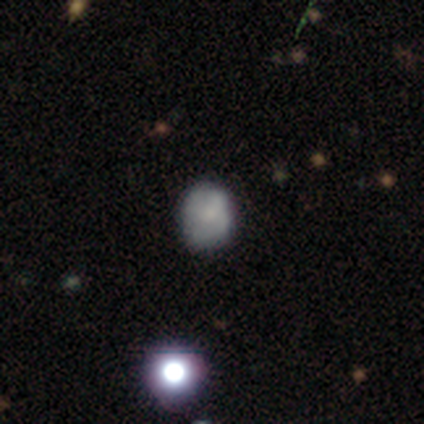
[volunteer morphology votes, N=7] Overall: smooth (43%, tied with star or artifact). How rounded: round (67%; in between 33%). Merging: none (50%, tied with minor disturbance).